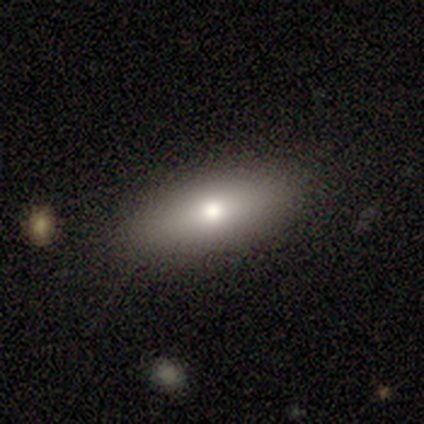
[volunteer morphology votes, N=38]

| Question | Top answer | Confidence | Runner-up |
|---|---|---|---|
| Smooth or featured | smooth | 68% | featured or disk (29%) |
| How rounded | in between | 85% | cigar-shaped (15%) |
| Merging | none | 68% | minor disturbance (5%) |